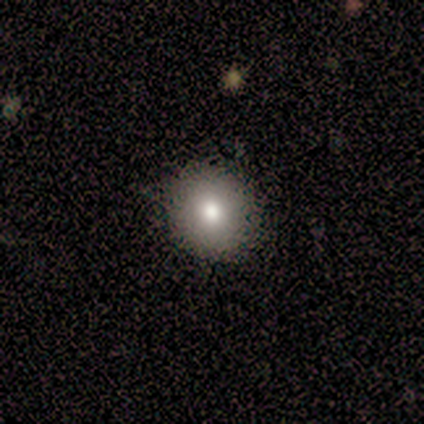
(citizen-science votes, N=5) smooth_or_featured: smooth (p=1.00)
how_rounded: round (p=0.80) [alt: in between p=0.20]
merging: none (p=0.80) [alt: minor disturbance p=0.20]